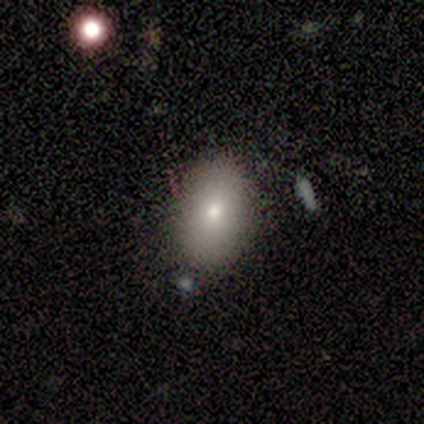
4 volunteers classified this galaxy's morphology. This is clearly a smooth galaxy (100%). How rounded: clearly in between (100%). Merging: likely none (75%).